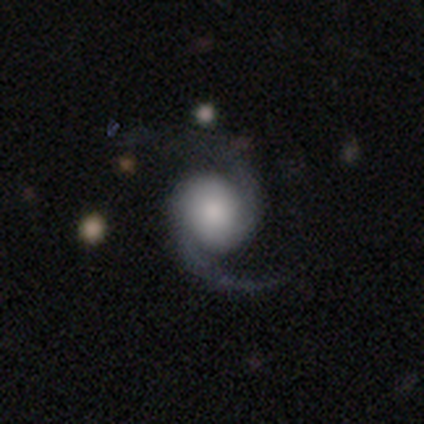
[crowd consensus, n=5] Smooth or featured: featured or disk — 100%
Edge-on disk: no — 100%
Bar: no — 80% (weak — 20%)
Spiral arms: yes — 100%
Spiral winding: loose — 60% (medium — 40%)
Spiral arm count: 2 — 100%
Bulge size: large — 40% (tied with none — 40%)
Merging: none — 80% (minor disturbance — 20%)